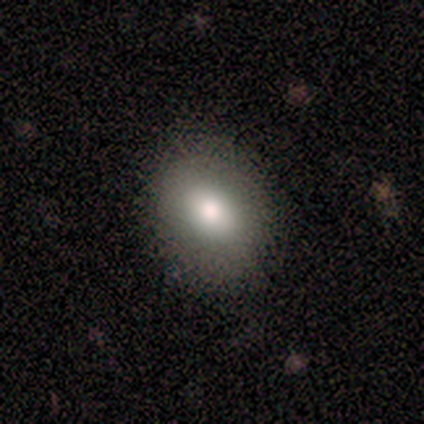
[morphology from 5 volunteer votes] A smooth galaxy with no disk features (100%) that is in between round and cigar-shaped (60%). Merging: none (80%).